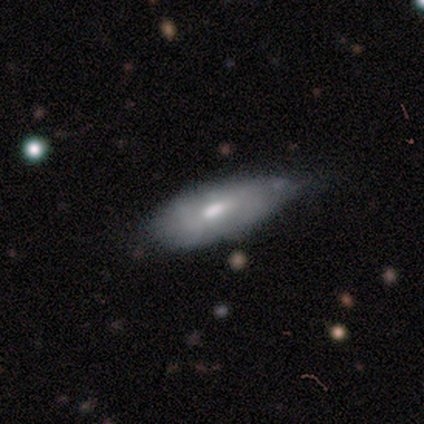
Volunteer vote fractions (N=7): This is likely a featured or disk galaxy (71%). It is likely not viewed edge-on (60%). Bar: clearly no (100%). Spiral arm pattern: likely no (67%). Central bulge: marginally large (33%, tied with moderate and none). Merging: likely minor disturbance (67%).